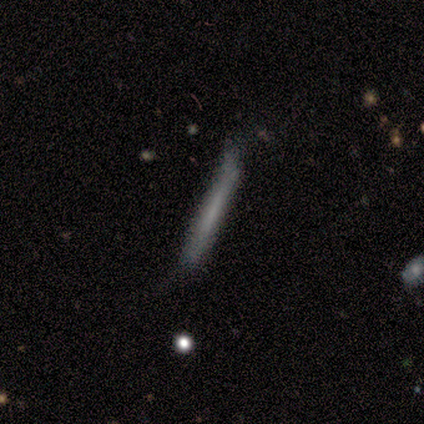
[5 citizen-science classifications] This is clearly a smooth galaxy (80%). How rounded: clearly cigar-shaped (100%). Merging: likely none (60%).